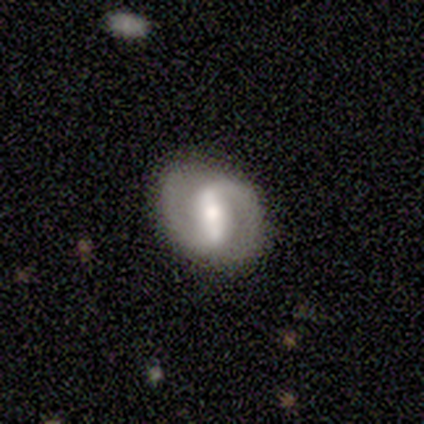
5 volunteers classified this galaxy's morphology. featured or disk 100%, smooth 0%, star or artifact 0%. Down the decision tree: edge-on disk — no (100%); bar — strong (40%, tied with weak); spiral arms — yes (80%); spiral arm count — 2 (75%); spiral winding — medium (50%); bulge size — large (40%, tied with moderate); merging — none (80%).